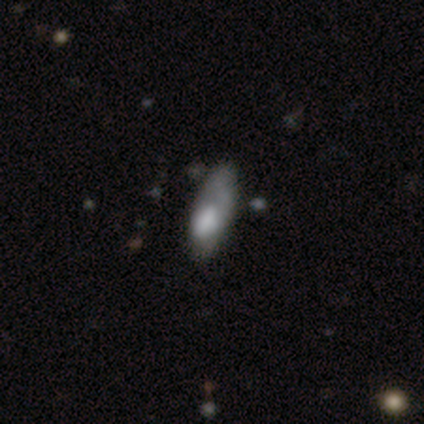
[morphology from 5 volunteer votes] A smooth galaxy with no disk features (80%) that is in between round and cigar-shaped (75%). Merging: none (60%).